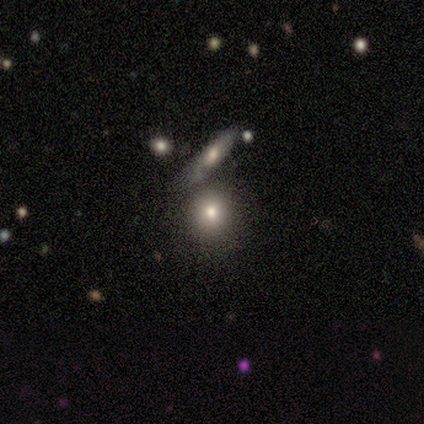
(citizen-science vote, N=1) Smooth or featured? 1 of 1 (100%) said star or artifact.